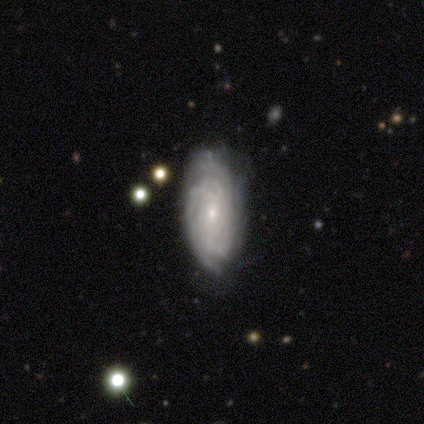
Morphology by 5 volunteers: Volunteers were most divided on "spiral arm count" (4-way tie): 2: 25%, 3: 25%, more than 4: 25%, can't tell: 25%, 1: 0%, 4: 0%. More confident: edge-on disk — no (100%); spiral arms — yes (100%); spiral winding — tight (100%); smooth or featured — featured or disk (80%); merging — none (80%); bar — no (75%); bulge size — small (75%).